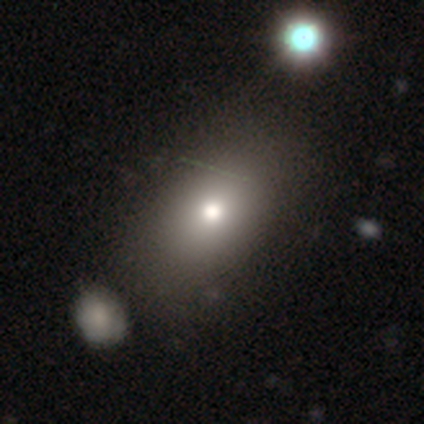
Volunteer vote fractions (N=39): smooth 79%, featured or disk 13%, star or artifact 8%. Down the decision tree: how rounded — in between (90%); merging — none (42%).